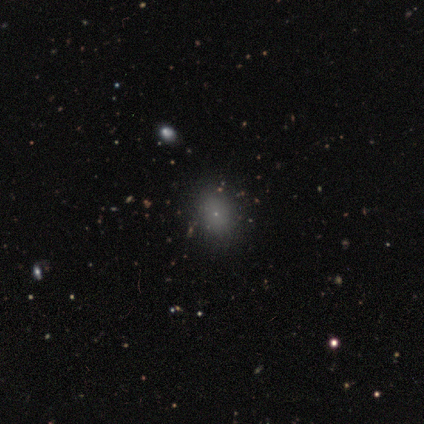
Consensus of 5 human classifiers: This is clearly a smooth galaxy (80%). How rounded: possibly round (50%, tied with in between). Merging: likely none (75%).